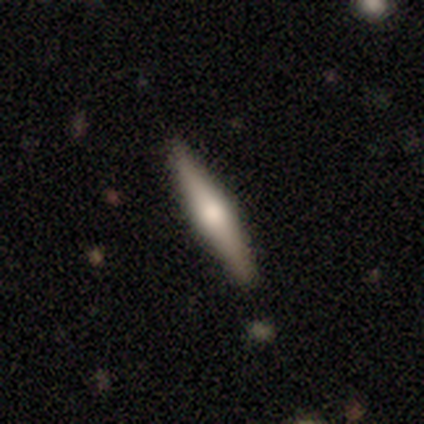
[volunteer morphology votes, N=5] smooth_or_featured: featured or disk (p=1.00)
disk_edge_on: yes (p=1.00)
edge_on_bulge: rounded (p=1.00)
merging: none (p=1.00)